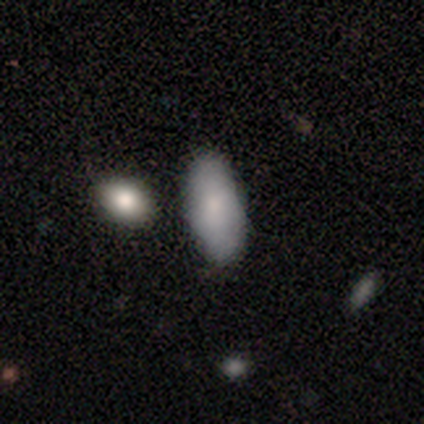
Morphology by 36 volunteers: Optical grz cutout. It shows a smooth galaxy with no disk features (83%) that is in between round and cigar-shaped (73%). Merging: none (78%).